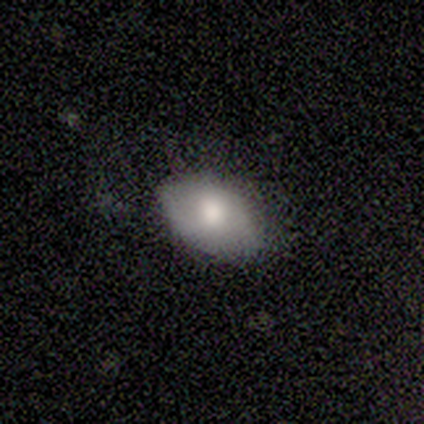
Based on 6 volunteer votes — A smooth galaxy with no disk features (100%) that is in between round and cigar-shaped (83%). Merging: none (100%).